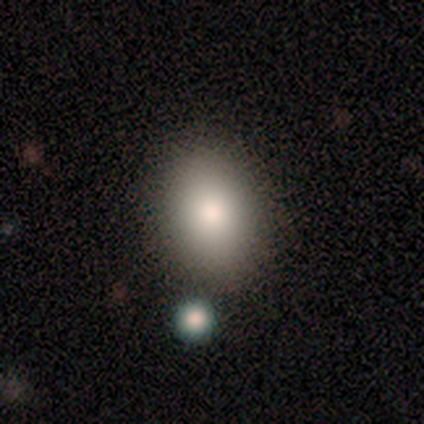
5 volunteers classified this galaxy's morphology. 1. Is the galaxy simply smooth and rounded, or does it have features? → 100% smooth, 0% featured or disk, 0% star or artifact.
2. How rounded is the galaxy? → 60% in between, 40% round, 0% cigar-shaped.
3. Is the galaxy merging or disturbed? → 100% none, 0% minor disturbance, 0% major disturbance, 0% merger.